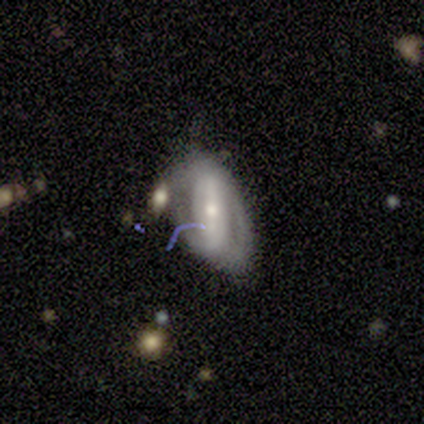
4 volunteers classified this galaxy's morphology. A featured or disk galaxy (100%) with a weak bar (75%), 2 (50%) loose (50%) spiral arms (100%) and a small central bulge (100%).

Vote fractions:
- Smooth or featured? featured or disk: 100% / smooth: 0% / star or artifact: 0%
- Edge-on disk? no: 100% / yes: 0%
- Bar? weak: 75% / no: 25% / strong: 0%
- Spiral arms? yes: 100% / no: 0%
- Spiral winding? loose: 50% / tight: 25% / medium: 25%
- Spiral arm count? 2: 50% / 1: 25% / can't tell: 25% / 3: 0% / 4: 0% / more than 4: 0%
- Bulge size? small: 100% / dominant: 0% / large: 0% / moderate: 0% / none: 0%
- Merging? none: 100% / minor disturbance: 0% / major disturbance: 0% / merger: 0%